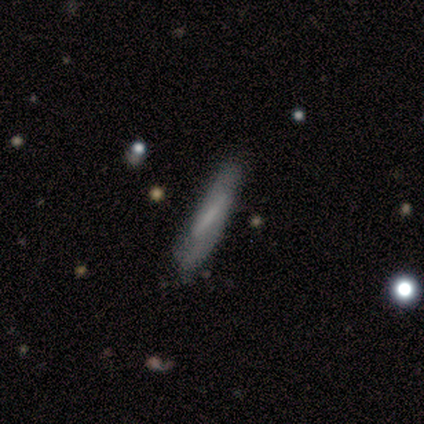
Overall: smooth (80%). How rounded: cigar-shaped (100%). Merging: none (60%; minor disturbance 40%).